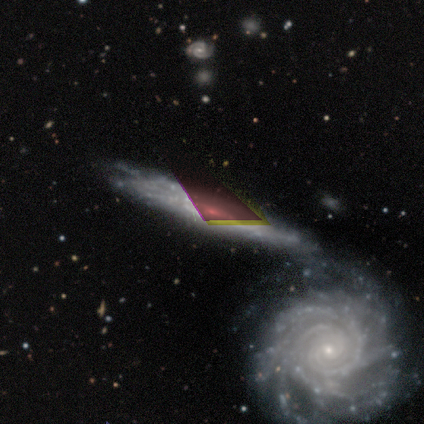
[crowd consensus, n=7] smooth-or-featured: featured or disk: 100% | smooth: 0% | star or artifact: 0%
  disk-edge-on: no: 100% | yes: 0%
    bar: no: 100% | strong: 0% | weak: 0%
    has-spiral-arms: yes: 57% | no: 43%
      spiral-winding: tight: 75% | medium: 25% | loose: 0%
      spiral-arm-count: can't tell: 100% | 1: 0% | 2: 0% | 3: 0% | 4: 0% | more than 4: 0%
    bulge-size: small: 43% | none: 29% | dominant: 14% | moderate: 14% | large: 0%
  merging: merger: 57% | none: 29% | minor disturbance: 14% | major disturbance: 0%